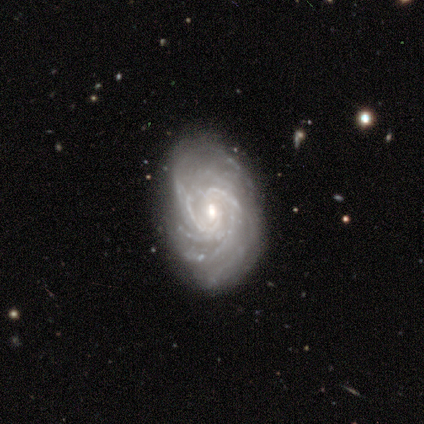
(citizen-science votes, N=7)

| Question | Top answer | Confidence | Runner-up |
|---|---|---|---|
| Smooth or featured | featured or disk | 100% | — |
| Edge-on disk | no | 100% | — |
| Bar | weak | 57% | no (43%) |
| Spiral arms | yes | 100% | — |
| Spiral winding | tight | 86% | medium (14%) |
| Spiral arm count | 4 | 29% | tied: more than 4 (29%) |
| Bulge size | moderate | 57% | small (43%) |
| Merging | none | 86% | major disturbance (14%) |